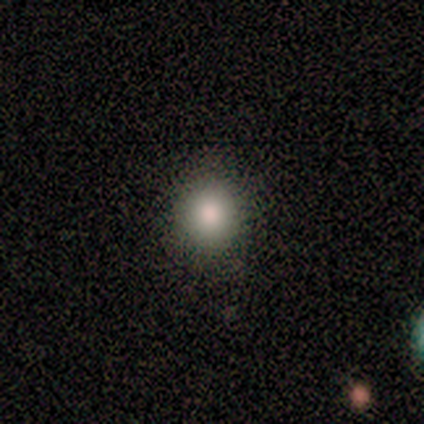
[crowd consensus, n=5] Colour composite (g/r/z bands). It shows a smooth galaxy with no disk features (100%) that is round (100%). Merging: none (80%).